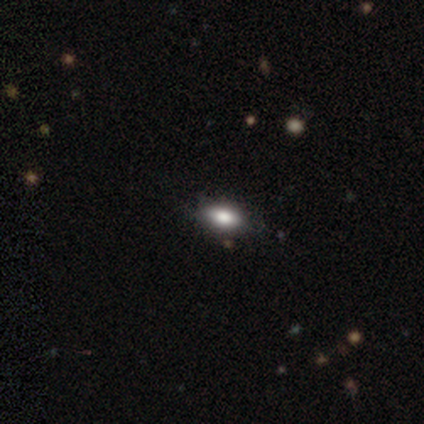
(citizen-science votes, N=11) smooth-or-featured: smooth: 73% | featured or disk: 18% | star or artifact: 9%
  how-rounded: in between: 100% | round: 0% | cigar-shaped: 0%
  merging: none: 70% | minor disturbance: 30% | major disturbance: 0% | merger: 0%